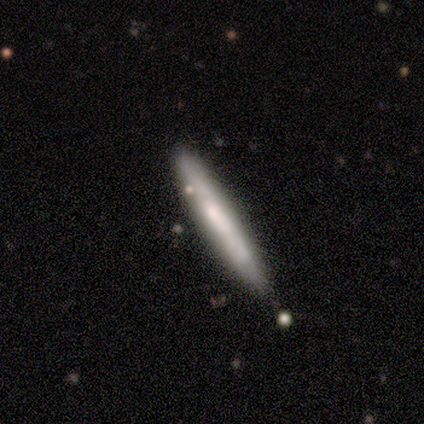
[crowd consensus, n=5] A smooth galaxy with no disk features (60%) that is cigar-shaped (100%). Merging: none (80%).